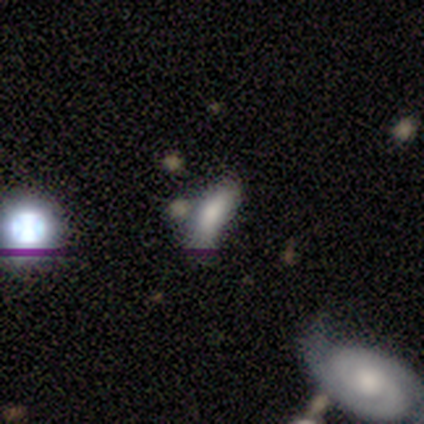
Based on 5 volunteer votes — Volunteers were most divided on "merging": none: 60%, major disturbance: 20%, merger: 20%, minor disturbance: 0%. More confident: smooth or featured — smooth (100%); how rounded — in between (80%).